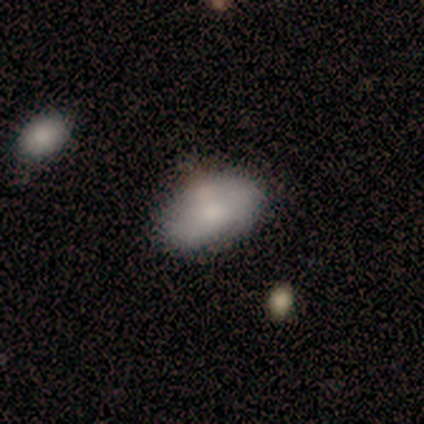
smooth_or_featured: smooth (p=0.80) [alt: featured or disk p=0.15]
how_rounded: in between (p=0.91) [alt: round p=0.09]
merging: none (p=0.49) [alt: minor disturbance p=0.15]